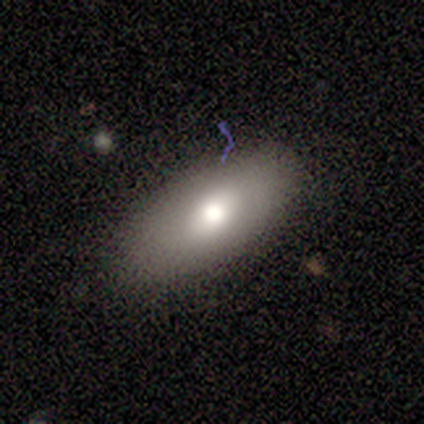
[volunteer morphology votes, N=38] Q: Smooth or featured?
A: smooth (71%); runner-up: featured or disk (21%)
Q: How rounded?
A: in between (93%); runner-up: cigar-shaped (7%)
Q: Merging?
A: none (86%); runner-up: minor disturbance (14%)